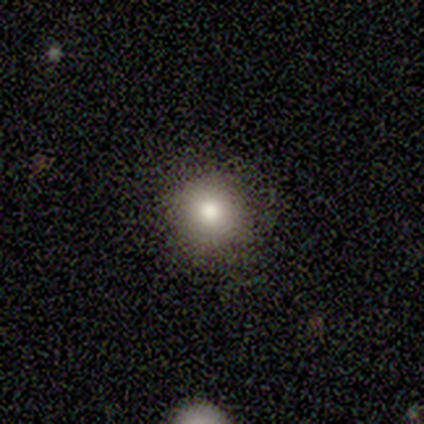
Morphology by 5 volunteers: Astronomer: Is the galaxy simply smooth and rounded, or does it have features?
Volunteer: smooth — 60% (runner-up: featured or disk, 40%).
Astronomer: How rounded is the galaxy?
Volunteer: round — 100%.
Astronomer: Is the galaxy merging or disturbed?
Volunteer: none — 100%.